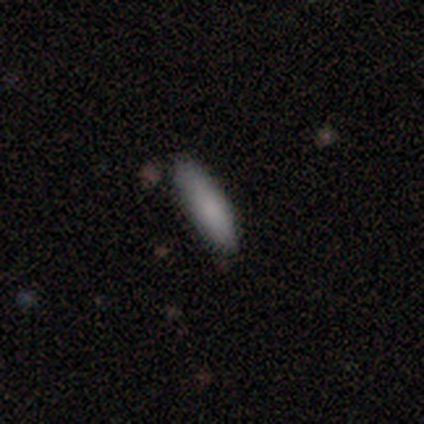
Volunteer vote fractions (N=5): Smooth or featured?
  - smooth: 100% *
  - featured or disk: 0%
  - star or artifact: 0%
How rounded?
  - in between: 60% *
  - cigar-shaped: 40%
  - round: 0%
Merging?
  - none: 100% *
  - minor disturbance: 0%
  - major disturbance: 0%
  - merger: 0%